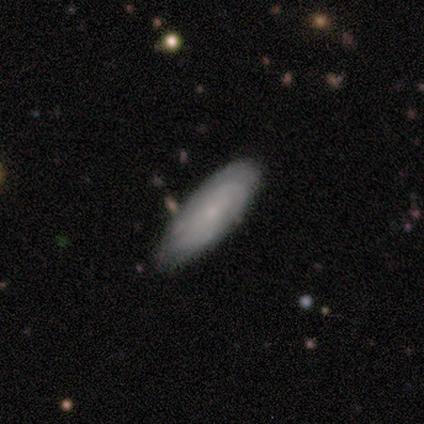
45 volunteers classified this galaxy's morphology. A featured or disk galaxy (56%) with no bar (78%), tight (68%) spiral arms (83%) and a small central bulge (74%). Merging: none (67%).